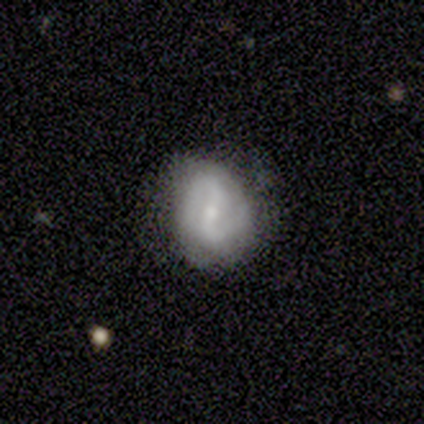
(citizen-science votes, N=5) Volunteers were most divided on "bar": no: 67%, weak: 33%, strong: 0%. More confident: edge-on disk — no (100%); spiral arms — yes (100%); spiral arm count — 2 (100%); bulge size — small (100%); merging — none (75%); spiral winding — tight (67%); smooth or featured — featured or disk (60%).